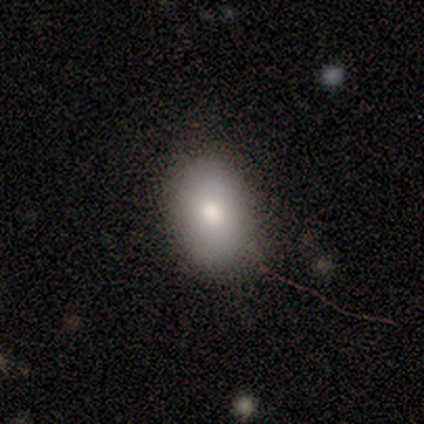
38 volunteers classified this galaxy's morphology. smooth_or_featured: smooth (p=0.68) [alt: featured or disk p=0.21]
how_rounded: in between (p=0.85) [alt: round p=0.12]
merging: none (p=0.82) [alt: minor disturbance p=0.15]